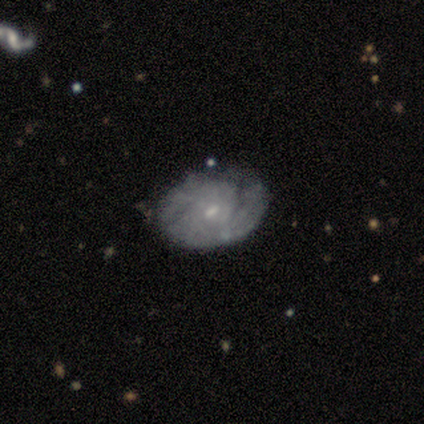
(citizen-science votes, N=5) This appears to be a featured or disk galaxy (100%) with no bar (60%), medium (67%) spiral arms (60%) and a small central bulge (100%). Merging: none (60%).